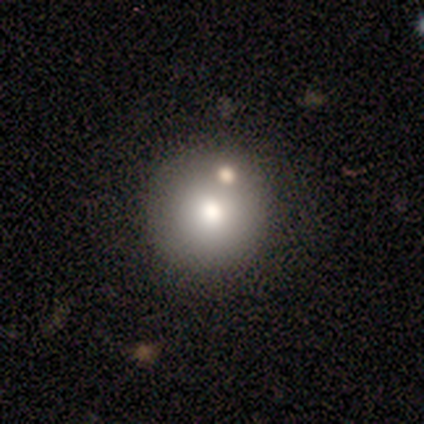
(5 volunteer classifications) This appears to be a smooth galaxy with no disk features (80%) that is round (100%). Merging: none (80%).